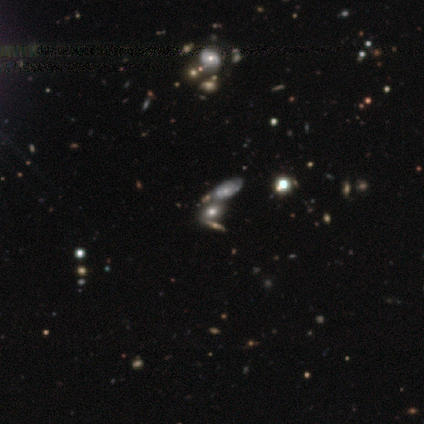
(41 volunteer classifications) Smooth or featured? smooth (46%)
How rounded? in between (89%)
Merging? merger (47%)